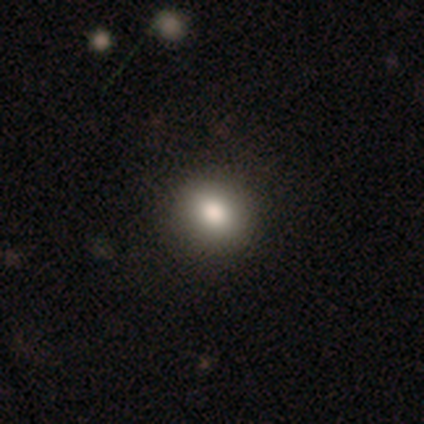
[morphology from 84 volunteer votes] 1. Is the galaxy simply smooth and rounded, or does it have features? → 79% smooth, 14% star or artifact, 7% featured or disk.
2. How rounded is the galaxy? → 73% round, 27% in between, 0% cigar-shaped.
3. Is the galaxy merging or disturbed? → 96% none, 1% minor disturbance, 1% major disturbance, 1% merger.